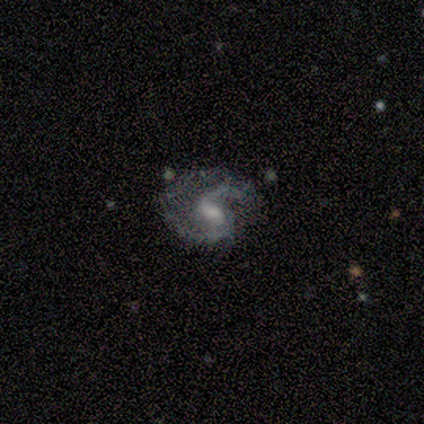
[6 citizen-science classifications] This appears to be a featured or disk galaxy (100%) with a weak bar (67%), 2 (83%) loose (50%) spiral arms (100%) and a moderate central bulge (33%, tied with small). Merging: none (50%).